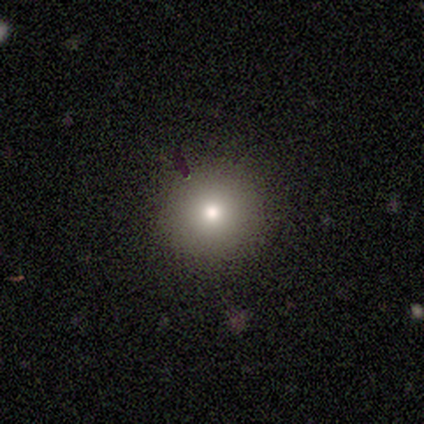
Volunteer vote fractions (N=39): This appears to be a smooth galaxy with no disk features (72%) that is round (93%). Merging: none (75%).